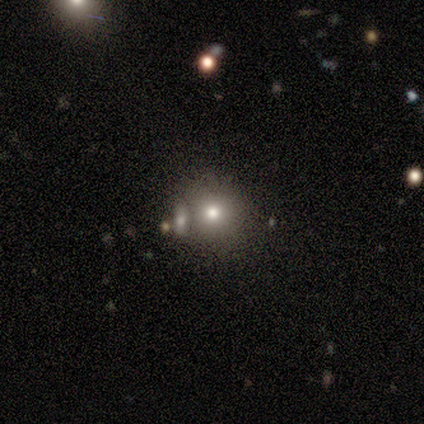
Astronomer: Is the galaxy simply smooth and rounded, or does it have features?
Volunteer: smooth — 50%.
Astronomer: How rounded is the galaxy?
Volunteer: round — 100%.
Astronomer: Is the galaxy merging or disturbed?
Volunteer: none — 67%.